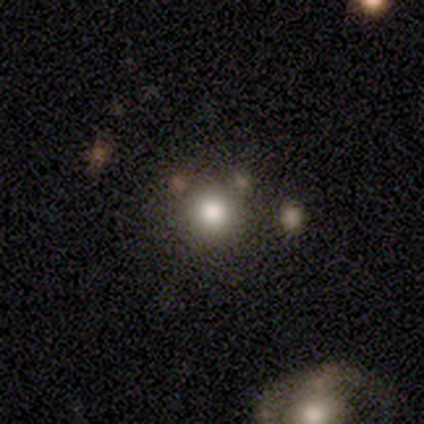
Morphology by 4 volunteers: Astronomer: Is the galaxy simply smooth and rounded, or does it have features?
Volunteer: smooth — 50%.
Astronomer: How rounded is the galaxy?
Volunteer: round — 100%.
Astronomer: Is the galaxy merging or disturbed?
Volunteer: none — 33%, tied with minor disturbance and merger at 33%.